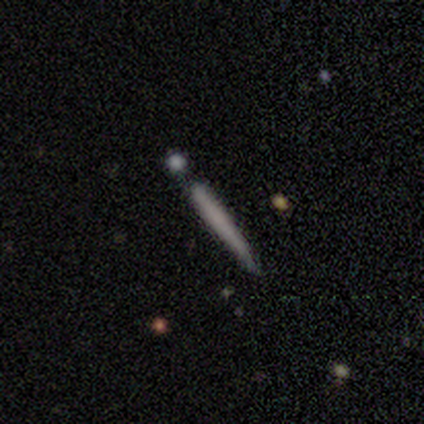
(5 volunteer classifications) Smooth or featured?
  - smooth: 40% * (tied)
  - featured or disk: 40% * (tied)
  - star or artifact: 20%
How rounded?
  - cigar-shaped: 100% *
  - round: 0%
  - in between: 0%
Merging?
  - none: 50% *
  - major disturbance: 25%
  - merger: 25%
  - minor disturbance: 0%